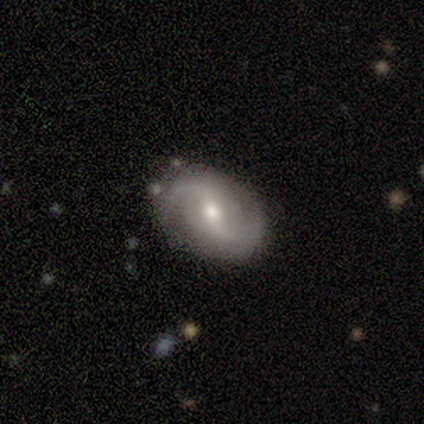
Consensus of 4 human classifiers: Smooth or featured? featured or disk (75%)
Edge-on disk? no (67%)
Bar? weak (50%, tied with no)
Spiral arms? yes (100%)
Spiral winding? medium (50%, tied with loose)
Spiral arm count? 2 (100%)
Bulge size? moderate (100%)
Merging? none (75%)